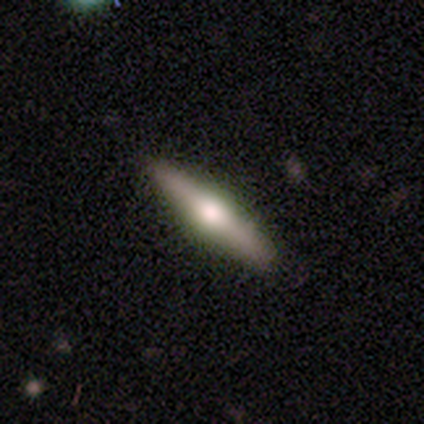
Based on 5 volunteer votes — featured or disk 60%, smooth 40%, star or artifact 0%. Down the decision tree: edge-on disk — yes (100%); edge-on bulge — rounded (100%); merging — none (100%).